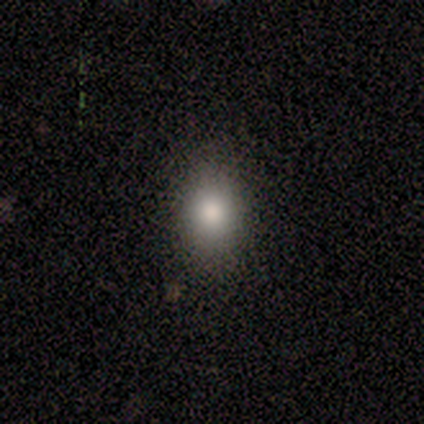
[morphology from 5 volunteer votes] Smooth or featured: smooth — 80% (star or artifact — 20%)
How rounded: in between — 75% (round — 25%)
Merging: none — 75% (minor disturbance — 25%)